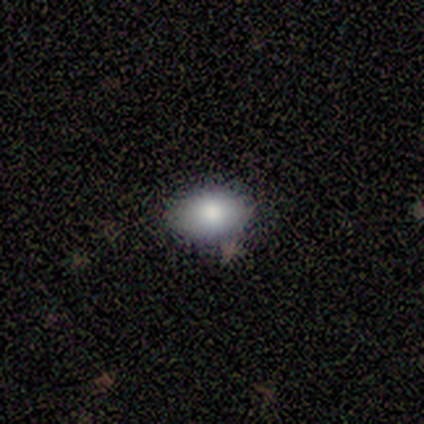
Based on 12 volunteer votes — This is clearly a smooth galaxy (92%). How rounded: likely in between (73%). Merging: clearly none (92%).